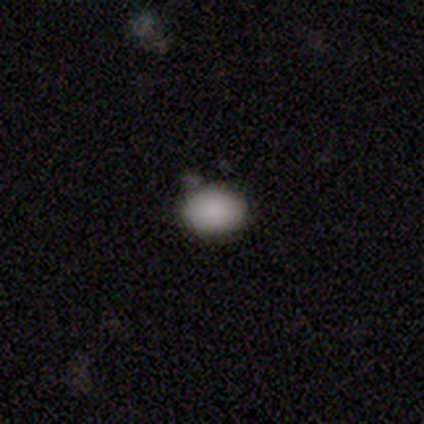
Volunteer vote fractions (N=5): smooth 100%, featured or disk 0%, star or artifact 0%. Down the decision tree: how rounded — in between (100%); merging — none (80%).